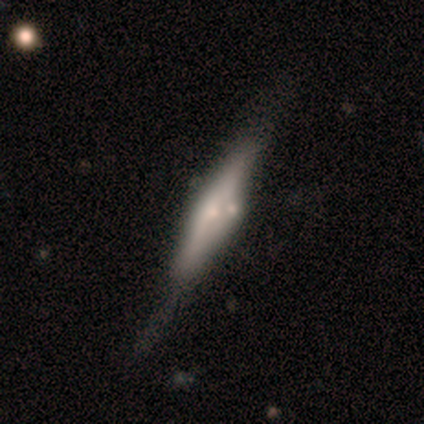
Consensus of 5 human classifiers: Volunteers were most divided on "smooth or featured" (2-way tie): smooth: 40%, featured or disk: 40%, star or artifact: 20%; "merging" (4-way tie): none: 25%, minor disturbance: 25%, major disturbance: 25%, merger: 25%. More confident: how rounded — cigar-shaped (100%).